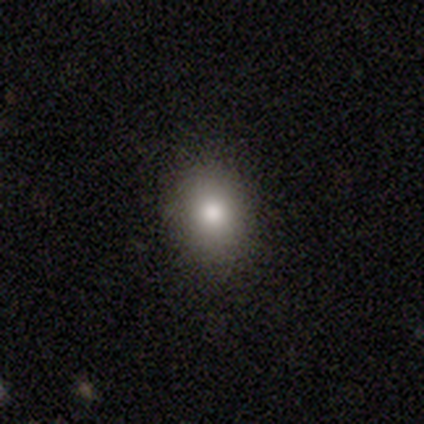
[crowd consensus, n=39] smooth_or_featured: smooth (p=0.74) [alt: star or artifact p=0.15]
how_rounded: round (p=0.52) [alt: in between p=0.48]
merging: none (p=0.91) [alt: minor disturbance p=0.03]